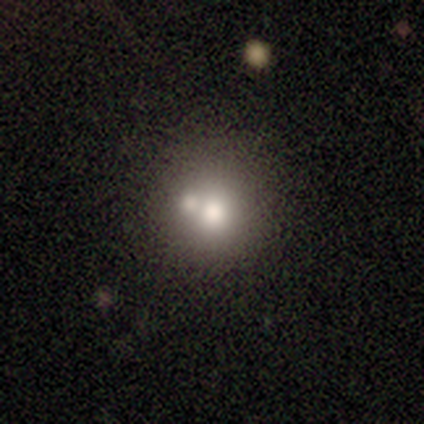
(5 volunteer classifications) A smooth galaxy with no disk features (80%) that is round (100%). Merging: none (50%, tied with merger).